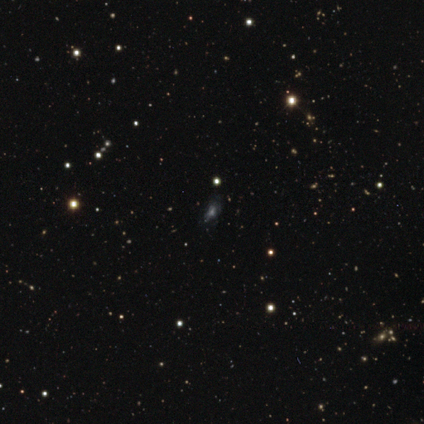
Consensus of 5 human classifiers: Smooth or featured? 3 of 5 (60%) said smooth. How rounded? 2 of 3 (67%) said in between. Merging? 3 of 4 (75%) said none.